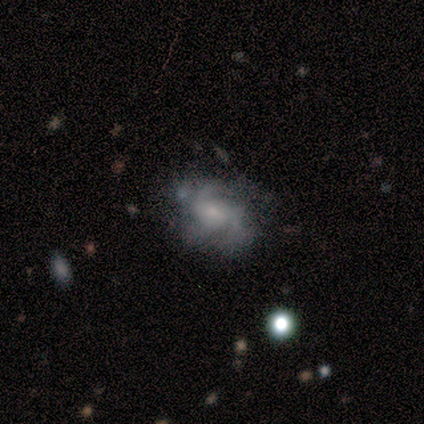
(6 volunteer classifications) Smooth or featured: featured or disk — 67% (smooth — 33%)
Edge-on disk: no — 100%
Bar: weak — 50% (tied with no — 50%)
Spiral arms: yes — 75% (no — 25%)
Spiral winding: medium — 67% (tight — 33%)
Spiral arm count: 3 — 67% (can't tell — 33%)
Bulge size: small — 100%
Merging: none — 67% (minor disturbance — 33%)